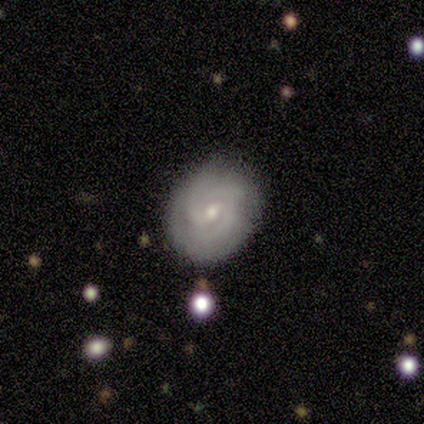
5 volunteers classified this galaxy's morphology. Overall: featured or disk (100%). Edge-on disk: no (100%). Bar: no (80%). Spiral arms: yes (100%). Spiral arm count: 2 (60%; 3 20%). Spiral winding: medium (60%; tight 40%). Bulge size: moderate (60%; small 40%). Merging: none (80%).